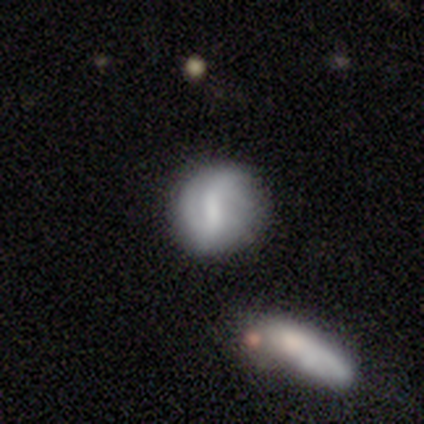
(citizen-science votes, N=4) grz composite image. It shows a smooth galaxy with no disk features (50%) that is round (100%). Merging: minor disturbance (67%).